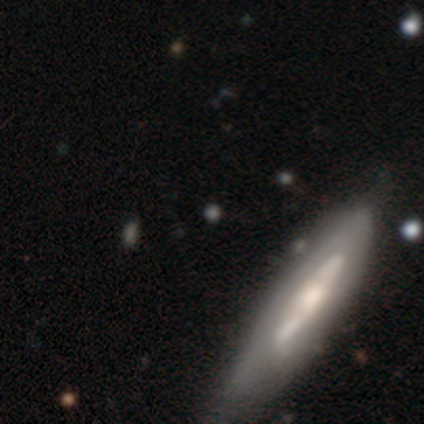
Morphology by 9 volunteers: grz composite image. It shows a featured or disk galaxy (56%) with no bar (100%), no spiral arms (100%) and a small central bulge (75%). Merging: none (89%).